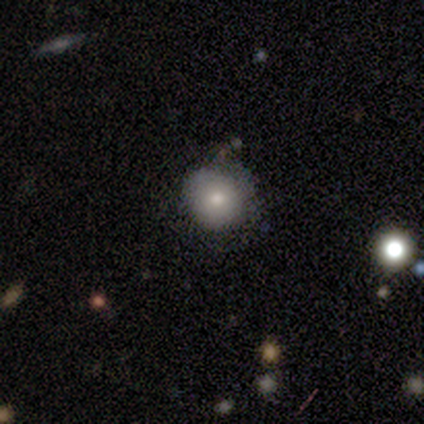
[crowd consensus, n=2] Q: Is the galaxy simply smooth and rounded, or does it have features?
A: smooth — 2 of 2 (100%).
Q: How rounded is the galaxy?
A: round — 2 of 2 (100%).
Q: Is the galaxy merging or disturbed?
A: none — 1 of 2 (50%, tied with major disturbance).